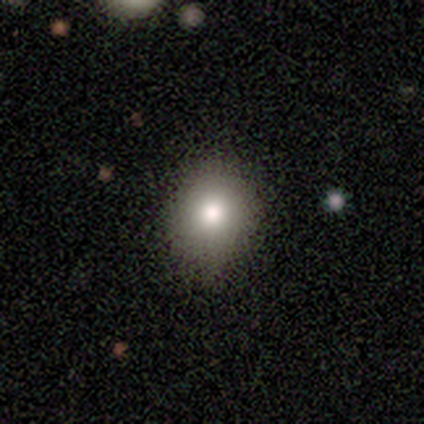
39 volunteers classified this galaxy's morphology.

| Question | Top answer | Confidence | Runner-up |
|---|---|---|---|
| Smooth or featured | smooth | 72% | star or artifact (15%) |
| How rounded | round | 68% | in between (32%) |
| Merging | none | 91% | major disturbance (6%) |